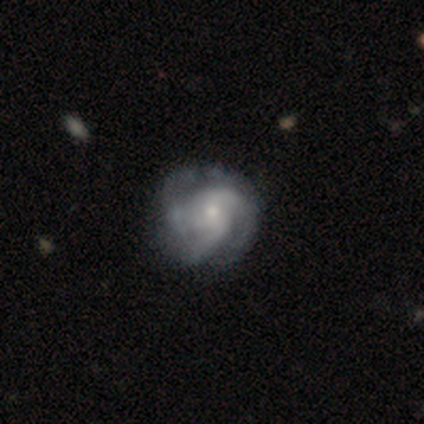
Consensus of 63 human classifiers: Overall: featured or disk (76%). Edge-on disk: no (98%). Bar: no (77%). Spiral arms: yes (100%). Spiral arm count: 3 (72%). Spiral winding: tight (55%; medium 32%). Bulge size: small (68%; moderate 30%). Merging: none (57%; minor disturbance 28%).